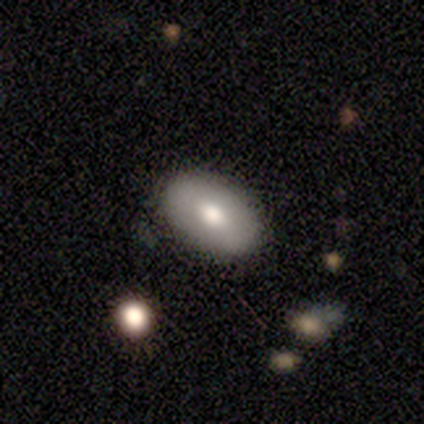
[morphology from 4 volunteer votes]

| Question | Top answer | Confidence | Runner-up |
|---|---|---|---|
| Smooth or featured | smooth | 75% | featured or disk (25%) |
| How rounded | in between | 100% | — |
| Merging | none | 100% | — |